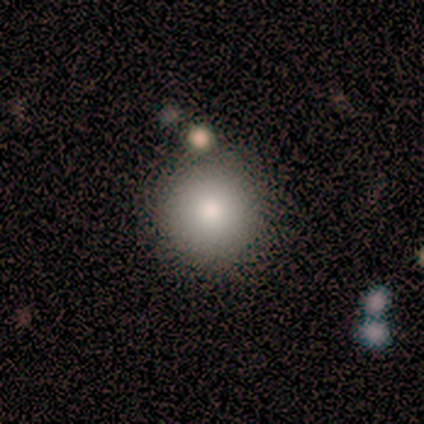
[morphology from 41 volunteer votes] smooth 93%, star or artifact 5%, featured or disk 2%. Down the decision tree: how rounded — round (92%); merging — none (87%).